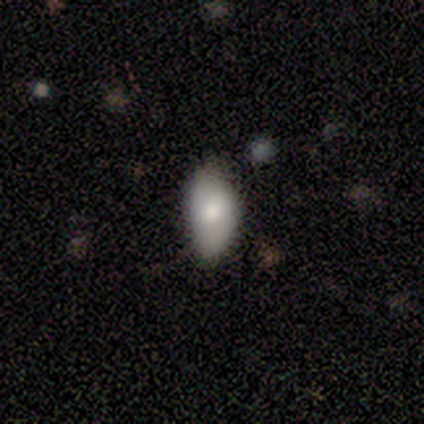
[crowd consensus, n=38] Smooth or featured? 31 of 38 (82%) said smooth. How rounded? 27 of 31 (87%) said in between. Merging? 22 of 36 (61%) said none.